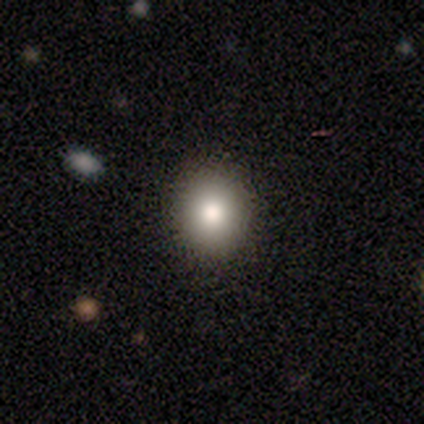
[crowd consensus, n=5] This is clearly a smooth galaxy (80%). How rounded: likely round (75%). Merging: clearly none (100%).